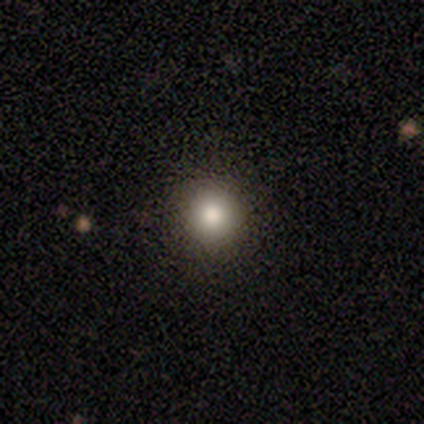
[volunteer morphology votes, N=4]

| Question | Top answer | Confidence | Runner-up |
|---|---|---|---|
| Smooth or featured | smooth | 75% | star or artifact (25%) |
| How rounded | round | 100% | — |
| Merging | none | 100% | — |